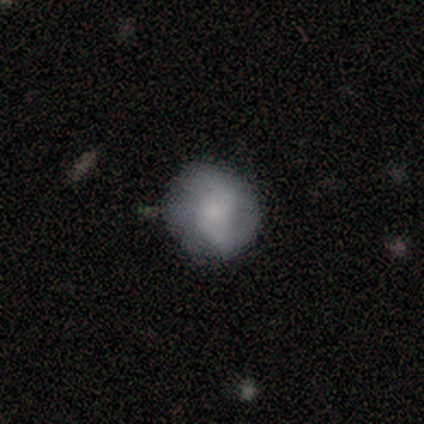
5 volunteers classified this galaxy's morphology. A featured or disk galaxy (60%) with no bar (100%), 2 (100%) loose (100%) spiral arms (100%) and a large central bulge (33%, tied with moderate and small). Merging: none (100%).